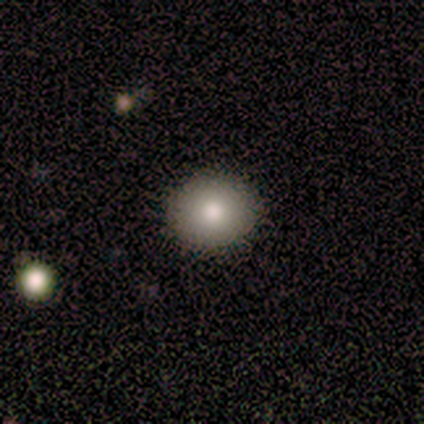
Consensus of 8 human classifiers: smooth_or_featured: smooth (p=1.00)
how_rounded: round (p=0.88) [alt: in between p=0.12]
merging: none (p=1.00)